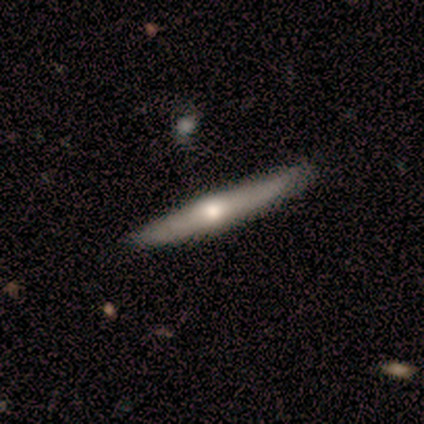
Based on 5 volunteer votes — Smooth or featured? featured or disk (80%)
Edge-on disk? yes (100%)
Edge-on bulge? rounded (100%)
Merging? none (100%)